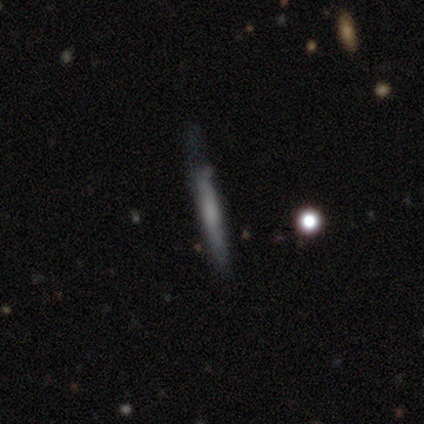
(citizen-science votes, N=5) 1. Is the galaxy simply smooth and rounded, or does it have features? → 60% smooth, 40% featured or disk, 0% star or artifact.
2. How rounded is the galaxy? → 100% cigar-shaped, 0% round, 0% in between.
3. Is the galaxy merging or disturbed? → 40% minor disturbance (tied), 40% major disturbance (tied), 20% none, 0% merger.